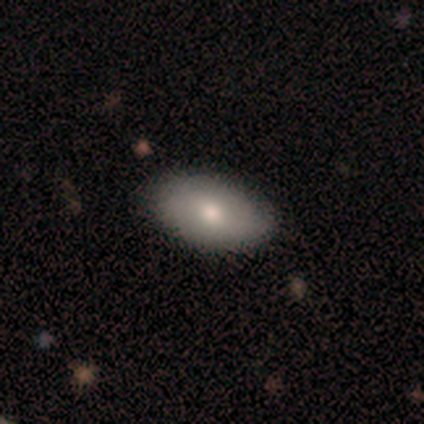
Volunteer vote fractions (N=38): Smooth or featured: smooth — 74% (featured or disk — 16%)
How rounded: in between — 89% (round — 11%)
Merging: none — 94% (minor disturbance — 6%)